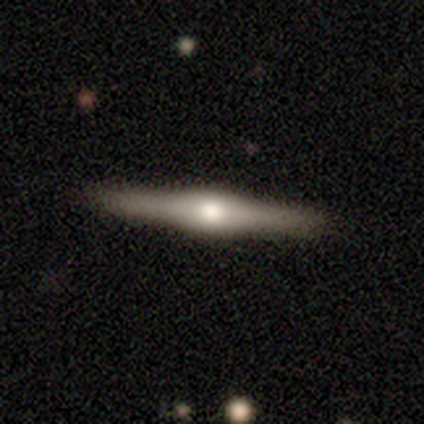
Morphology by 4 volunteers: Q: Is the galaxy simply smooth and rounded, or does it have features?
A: featured or disk — 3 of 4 (75%).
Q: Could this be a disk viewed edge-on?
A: yes — 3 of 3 (100%).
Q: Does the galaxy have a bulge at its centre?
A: rounded — 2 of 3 (67%).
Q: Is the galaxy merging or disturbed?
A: none — 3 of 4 (75%).